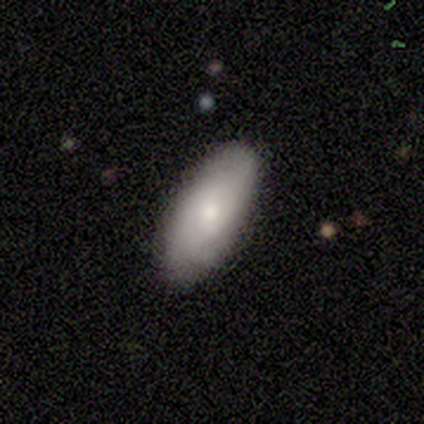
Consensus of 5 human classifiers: Q: Smooth or featured?
A: smooth (100%)
Q: How rounded?
A: in between (80%); runner-up: cigar-shaped (20%)
Q: Merging?
A: none (100%)